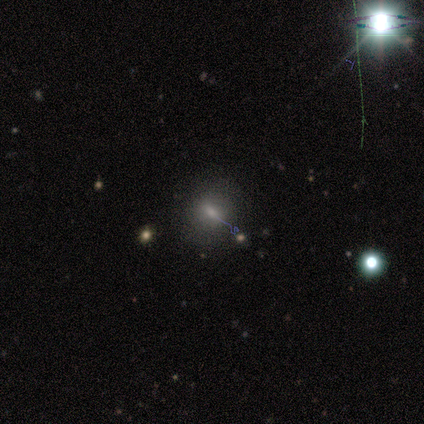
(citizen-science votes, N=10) Smooth or featured: smooth — 60% (star or artifact — 30%)
How rounded: round — 67% (in between — 33%)
Merging: none — 86% (major disturbance — 14%)